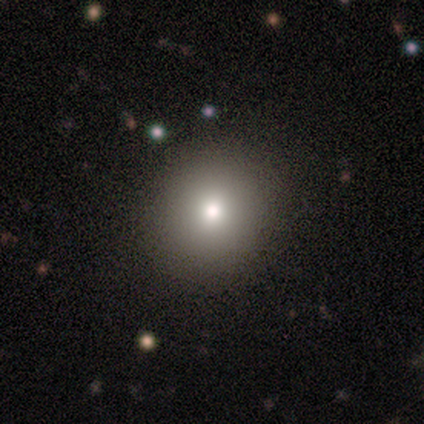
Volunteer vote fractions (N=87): Smooth or featured? 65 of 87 (75%) said smooth. How rounded? 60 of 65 (92%) said round. Merging? 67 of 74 (91%) said none.